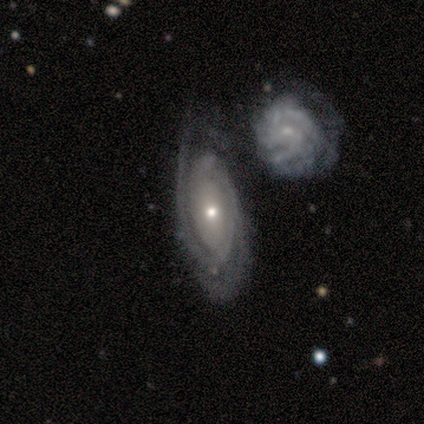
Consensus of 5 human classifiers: Smooth or featured?
  - featured or disk: 60% *
  - smooth: 40%
  - star or artifact: 0%
Edge-on disk?
  - no: 100% *
  - yes: 0%
Bar?
  - no: 67% *
  - weak: 33%
  - strong: 0%
Spiral arms?
  - yes: 100% *
  - no: 0%
Spiral winding?
  - tight: 67% *
  - medium: 33%
  - loose: 0%
Spiral arm count?
  - can't tell: 100% *
  - 1: 0%
  - 2: 0%
  - 3: 0%
  - 4: 0%
  - more than 4: 0%
Bulge size?
  - small: 100% *
  - dominant: 0%
  - large: 0%
  - moderate: 0%
  - none: 0%
Merging?
  - merger: 60% *
  - none: 20%
  - minor disturbance: 20%
  - major disturbance: 0%